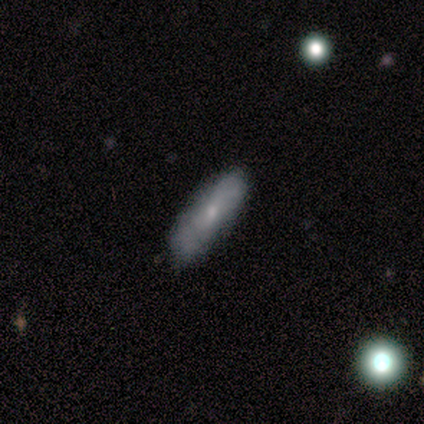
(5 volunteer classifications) smooth-or-featured: featured or disk: 60% | smooth: 40% | star or artifact: 0%
  disk-edge-on: no: 67% | yes: 33%
    bar: no: 100% | strong: 0% | weak: 0%
    has-spiral-arms: no: 100% | yes: 0%
    bulge-size: small: 100% | dominant: 0% | large: 0% | moderate: 0% | none: 0%
  merging: none: 80% | minor disturbance: 20% | major disturbance: 0% | merger: 0%